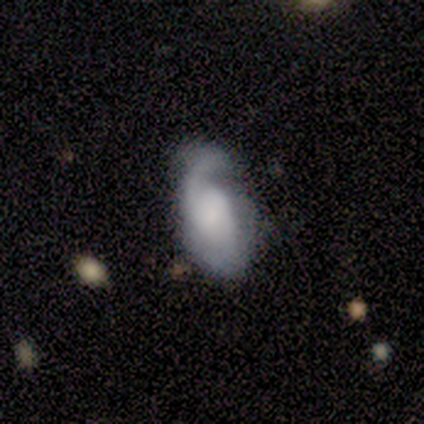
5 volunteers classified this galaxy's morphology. Volunteers were most divided on "bar" (2-way tie): strong: 50%, weak: 50%, no: 0%; "spiral winding" (2-way tie): tight: 50%, loose: 50%, medium: 0%. Remaining: spiral arms — yes (100%); spiral arm count — 1 (100%); bulge size — large (100%); edge-on disk — no (67%); smooth or featured — featured or disk (60%); merging — minor disturbance (40%).